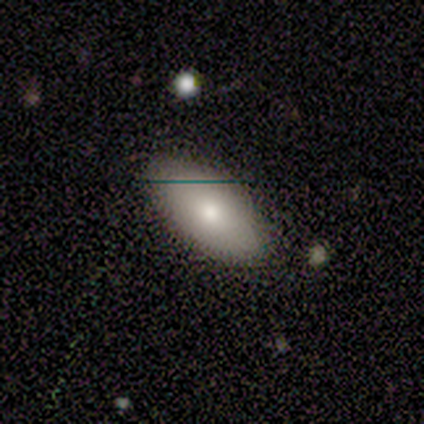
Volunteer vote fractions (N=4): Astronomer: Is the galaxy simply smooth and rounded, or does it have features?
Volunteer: smooth — 100%.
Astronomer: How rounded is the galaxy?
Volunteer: in between — 100%.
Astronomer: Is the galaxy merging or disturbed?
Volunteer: none — 100%.